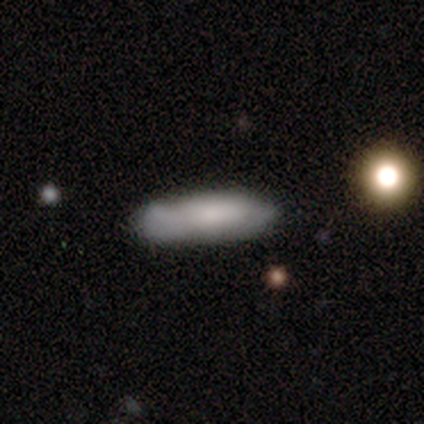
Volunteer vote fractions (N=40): A smooth galaxy with no disk features (70%) that is cigar-shaped (71%). Merging: none (68%).